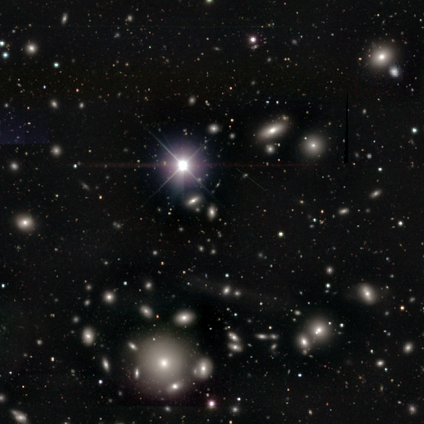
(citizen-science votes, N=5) Smooth or featured?
  - star or artifact: 100% *
  - smooth: 0%
  - featured or disk: 0%